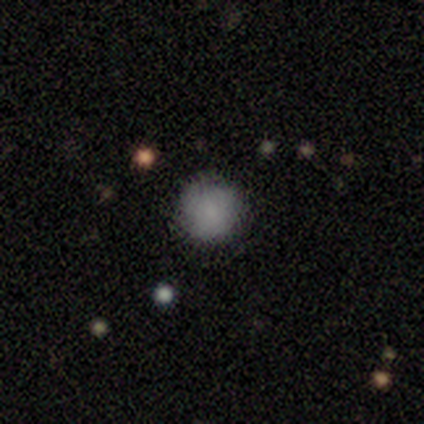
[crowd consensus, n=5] Smooth or featured? smooth (100%)
How rounded? round (100%)
Merging? none (100%)